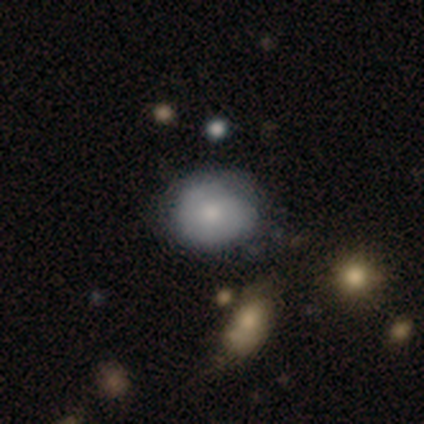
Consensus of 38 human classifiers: Smooth or featured?
  - smooth: 61% *
  - featured or disk: 32%
  - star or artifact: 8%
How rounded?
  - round: 70% *
  - in between: 30%
  - cigar-shaped: 0%
Merging?
  - none: 60% *
  - minor disturbance: 31%
  - major disturbance: 6%
  - merger: 3%